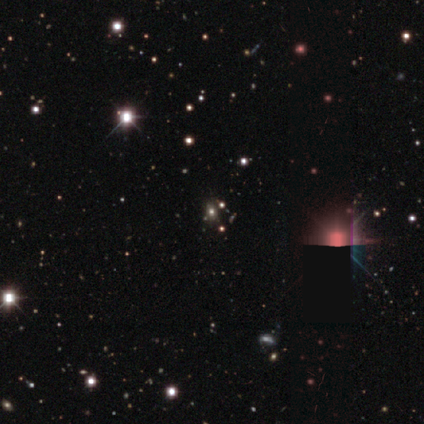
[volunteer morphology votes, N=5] smooth_or_featured: star or artifact (p=0.80) [alt: smooth p=0.20]